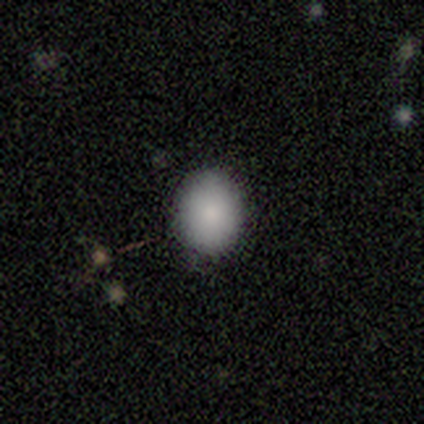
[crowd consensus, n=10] Smooth or featured? 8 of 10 (80%) said smooth. How rounded? 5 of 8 (62%) said in between. Merging? 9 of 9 (100%) said none.